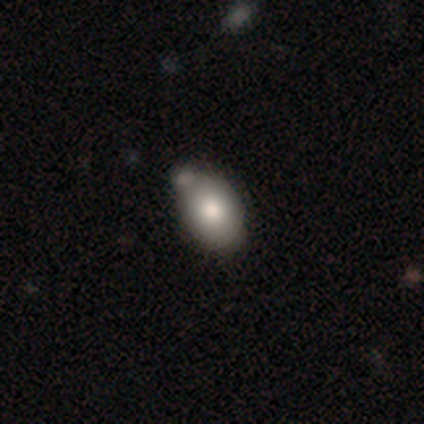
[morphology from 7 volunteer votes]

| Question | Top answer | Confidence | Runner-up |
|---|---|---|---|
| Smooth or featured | smooth | 57% | featured or disk (29%) |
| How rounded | in between | 100% | — |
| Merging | none | 67% | minor disturbance (17%) |